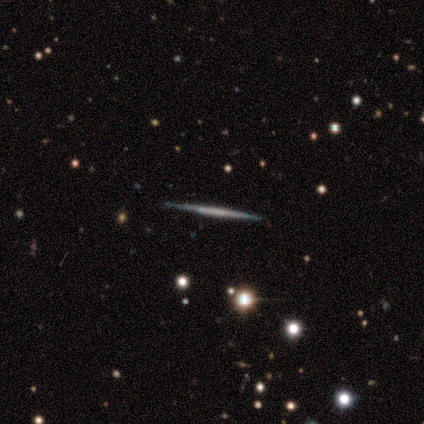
A featured or disk galaxy (75%) viewed edge-on (100%) with no central bulge (67%).

Vote fractions:
- Smooth or featured? featured or disk: 75% / smooth: 25% / star or artifact: 0%
- Edge-on disk? yes: 100% / no: 0%
- Edge-on bulge? none: 67% / boxy: 33% / rounded: 0%
- Merging? none: 75% / minor disturbance: 25% / major disturbance: 0% / merger: 0%